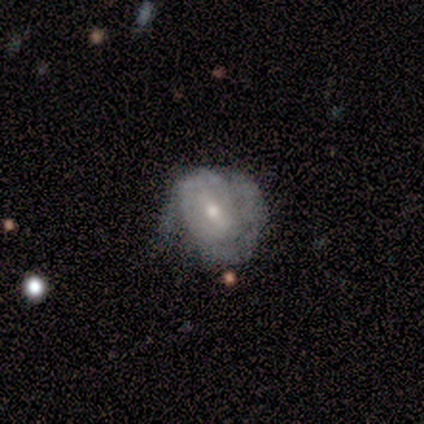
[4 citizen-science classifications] Morphology: type=featured or disk (100%); edge-on=no (100%); bar=weak (75%); spiral arms=yes (50%, tied with no); winding=tight (50%, tied with medium); arm count=2 (50%, tied with can't tell); bulge=moderate (50%, tied with small); merging=none (75%).